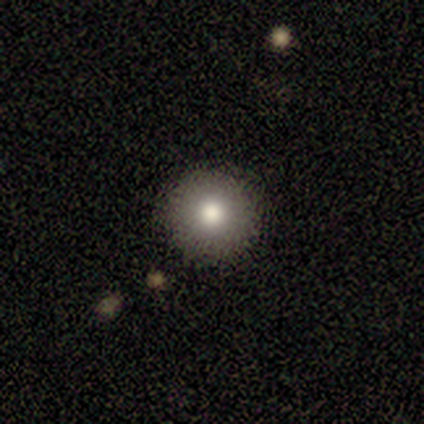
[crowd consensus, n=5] Q: Smooth or featured?
A: smooth (80%); runner-up: featured or disk (20%)
Q: How rounded?
A: round (100%)
Q: Merging?
A: none (100%)